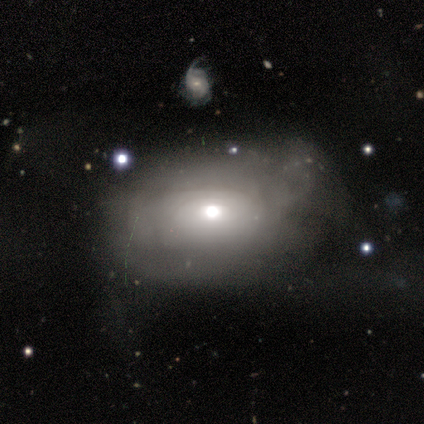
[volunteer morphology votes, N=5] This is likely a featured or disk galaxy (60%). It is clearly not viewed edge-on (100%). Bar: clearly no (100%). Spiral arm pattern: likely yes (67%). Spiral arm count: clearly can't tell (100%). Spiral winding: possibly tight (50%, tied with loose). Central bulge: likely moderate (67%). Merging: likely none (75%).